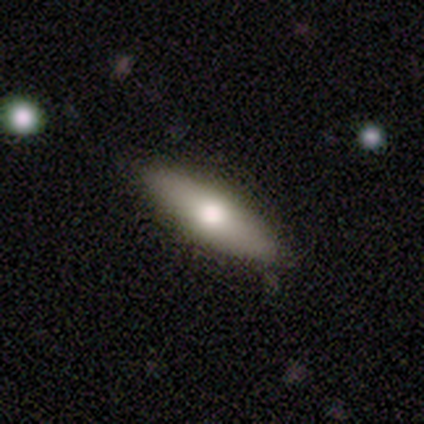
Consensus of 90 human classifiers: Smooth or featured? 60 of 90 (67%) said smooth. How rounded? 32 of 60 (53%) said cigar-shaped. Merging? 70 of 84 (83%) said none.